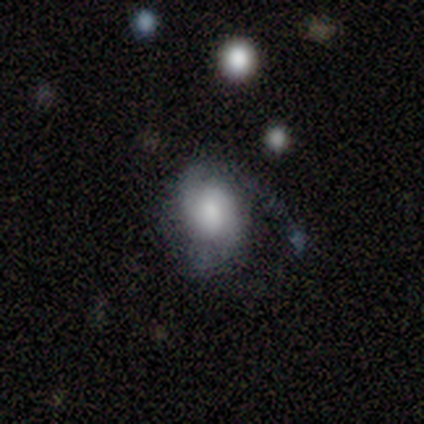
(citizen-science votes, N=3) Volunteers were most divided on "bar" (2-way tie): weak: 50%, no: 50%, strong: 0%; "spiral arms" (2-way tie): yes: 50%, no: 50%. More confident: edge-on disk — no (100%); spiral winding — tight (100%); spiral arm count — can't tell (100%); bulge size — dominant (100%); smooth or featured — featured or disk (67%); merging — major disturbance (67%).